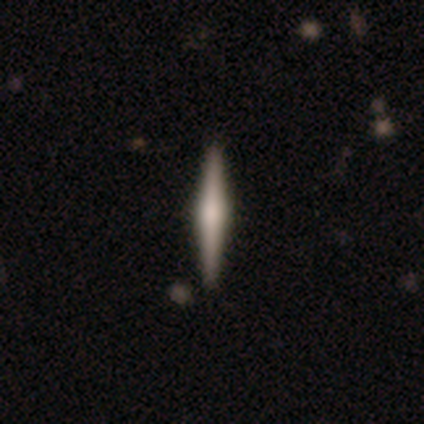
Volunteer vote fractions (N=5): Overall: featured or disk (80%). Edge-on disk: yes (100%). Edge-on bulge: rounded (75%). Merging: none (100%).